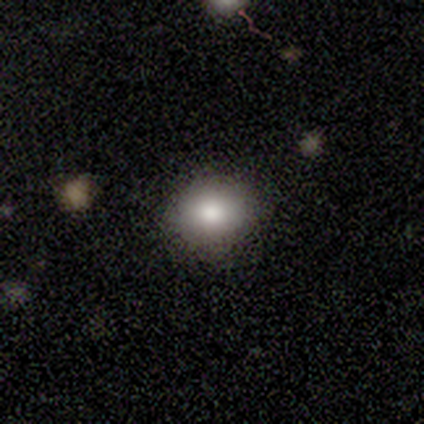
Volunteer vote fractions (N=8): Overall: smooth (88%). How rounded: round (57%; in between 43%). Merging: none (88%).